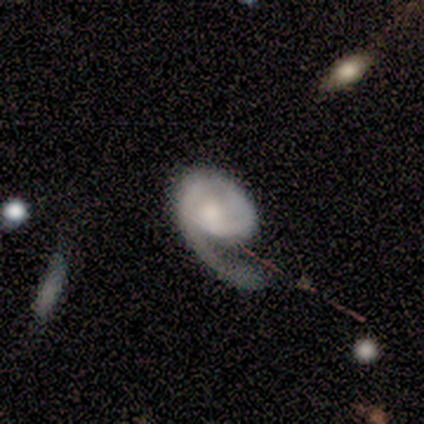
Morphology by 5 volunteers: A featured or disk galaxy (100%) with no bar (80%), 1 (100%) medium (40%, tied with loose) spiral arms (100%) and a moderate central bulge (40%, tied with small).

Vote fractions:
- Smooth or featured? featured or disk: 100% / smooth: 0% / star or artifact: 0%
- Edge-on disk? no: 100% / yes: 0%
- Bar? no: 80% / weak: 20% / strong: 0%
- Spiral arms? yes: 100% / no: 0%
- Spiral winding? medium: 40% (tied) / loose: 40% (tied) / tight: 20%
- Spiral arm count? 1: 100% / 2: 0% / 3: 0% / 4: 0% / more than 4: 0% / can't tell: 0%
- Bulge size? moderate: 40% (tied) / small: 40% (tied) / large: 20% / dominant: 0% / none: 0%
- Merging? none: 60% / minor disturbance: 20% / major disturbance: 20% / merger: 0%